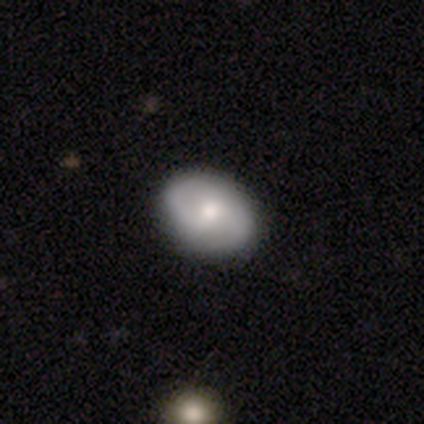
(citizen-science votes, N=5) smooth_or_featured: featured or disk (p=0.60) [alt: smooth p=0.40]
disk_edge_on: no (p=1.00)
bar: no (p=0.67) [alt: weak p=0.33]
has_spiral_arms: yes (p=0.67) [alt: no p=0.33]
spiral_winding: medium (p=1.00)
spiral_arm_count: 2 (p=1.00)
bulge_size: small (p=0.67) [alt: moderate p=0.33]
merging: none (p=1.00)